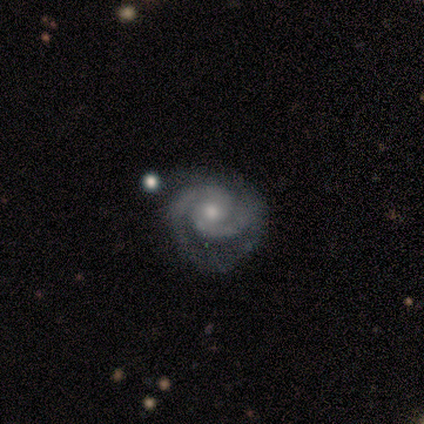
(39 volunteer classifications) Smooth or featured: featured or disk — 90% (star or artifact — 10%)
Edge-on disk: no — 97% (yes — 3%)
Bar: no — 74% (weak — 24%)
Spiral arms: yes — 97% (no — 3%)
Spiral winding: tight — 61% (medium — 33%)
Spiral arm count: 2 — 91% (1 — 3%)
Bulge size: moderate — 62% (small — 38%)
Merging: none — 57% (minor disturbance — 20%)